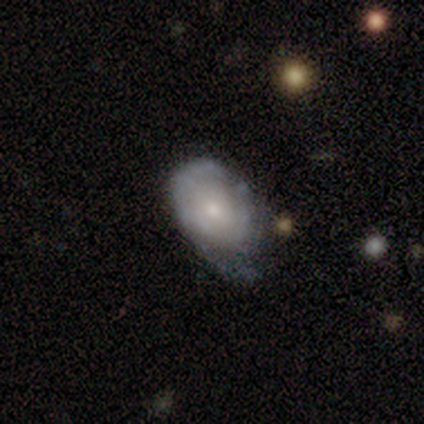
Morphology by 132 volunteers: A featured or disk galaxy (64%) with no bar (89%), tight (74%) spiral arms (71%) and a small central bulge (60%). Merging: minor disturbance (55%).